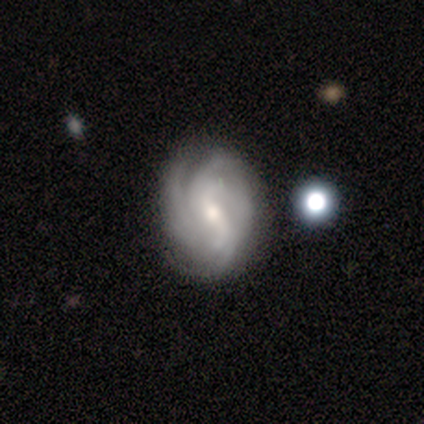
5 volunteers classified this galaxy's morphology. smooth_or_featured: featured or disk (p=0.80) [alt: smooth p=0.20]
disk_edge_on: no (p=1.00)
bar: no (p=0.50) [alt: strong p=0.25]
has_spiral_arms: yes (p=1.00)
spiral_winding: tight (p=0.75) [alt: medium p=0.25]
spiral_arm_count: can't tell (p=0.50) [alt: 2 p=0.25]
bulge_size: moderate (p=0.50) [tied with: small p=0.50]
merging: none (p=0.60) [alt: major disturbance p=0.40]